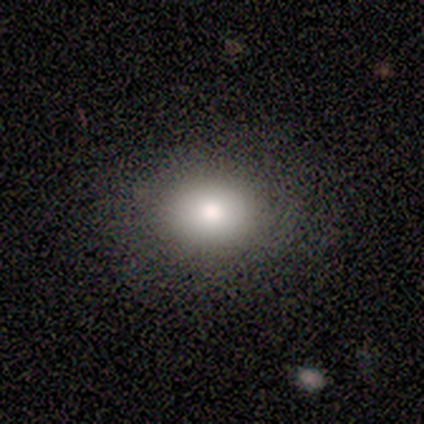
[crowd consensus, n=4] smooth 75%, featured or disk 25%, star or artifact 0%. Down the decision tree: how rounded — round (100%); merging — none (100%).